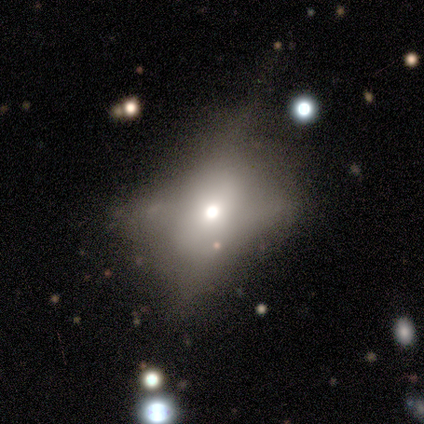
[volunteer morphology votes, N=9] Smooth or featured: star or artifact — 78% (smooth — 11%)